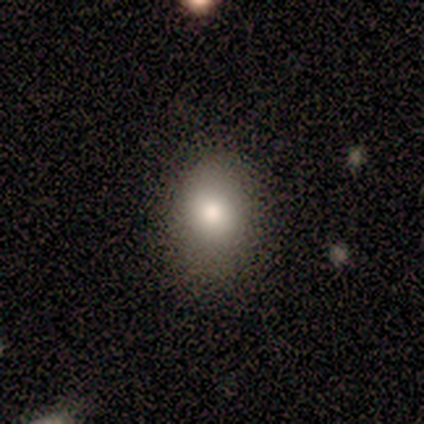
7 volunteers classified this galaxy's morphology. Smooth or featured: smooth — 86% (featured or disk — 14%)
How rounded: in between — 83% (cigar-shaped — 17%)
Merging: minor disturbance — 57% (none — 43%)